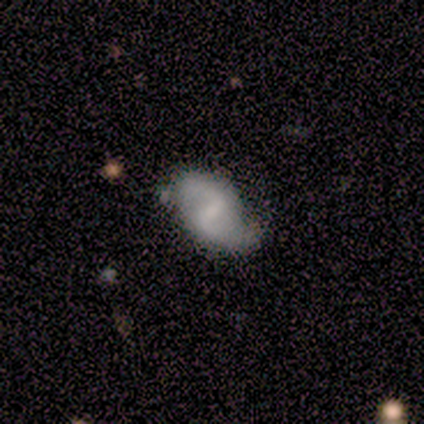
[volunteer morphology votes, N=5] Q: Smooth or featured?
A: featured or disk (80%); runner-up: smooth (20%)
Q: Edge-on disk?
A: no (100%)
Q: Bar?
A: weak (75%); runner-up: no (25%)
Q: Spiral arms?
A: yes (100%)
Q: Spiral winding?
A: loose (75%); runner-up: medium (25%)
Q: Spiral arm count?
A: 2 (100%)
Q: Bulge size?
A: none (75%); runner-up: small (25%)
Q: Merging?
A: minor disturbance (60%); runner-up: none (40%)